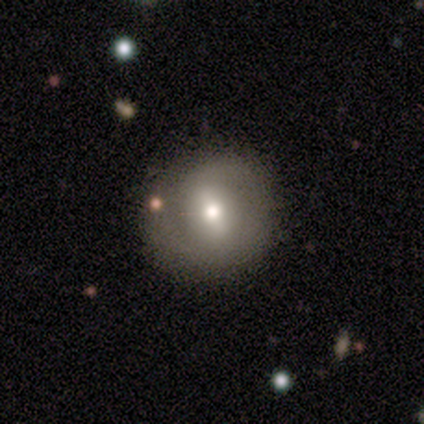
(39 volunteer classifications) smooth 49%, featured or disk 46%, star or artifact 5%. Down the decision tree: how rounded — round (95%); merging — none (81%).